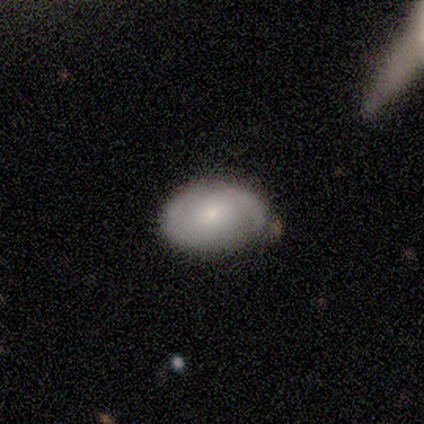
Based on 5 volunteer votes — featured or disk 80%, star or artifact 20%, smooth 0%. Down the decision tree: edge-on disk — no (100%); bar — no (100%); spiral arms — yes (75%); spiral arm count — 1 (33%, tied with 2 and can't tell); spiral winding — tight (67%); bulge size — small (75%); merging — none (50%, tied with minor disturbance).